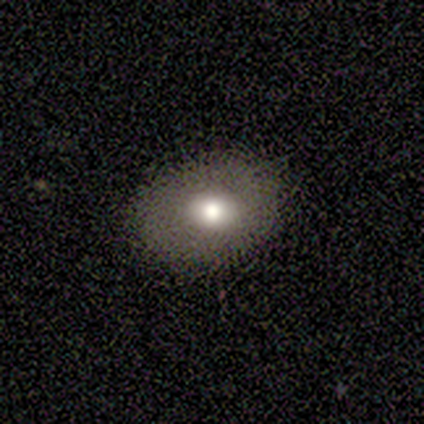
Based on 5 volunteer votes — A smooth galaxy with no disk features (80%) that is round (50%, tied with in between).

Vote fractions:
- Smooth or featured? smooth: 80% / star or artifact: 20% / featured or disk: 0%
- How rounded? round: 50% (tied) / in between: 50% (tied) / cigar-shaped: 0%
- Merging? none: 100% / minor disturbance: 0% / major disturbance: 0% / merger: 0%